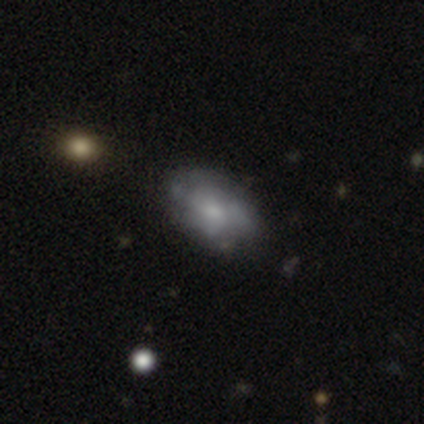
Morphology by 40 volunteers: This appears to be a featured or disk galaxy (55%) with no bar (90%), no spiral arms (62%) and a small central bulge (43%). Merging: none (51%).